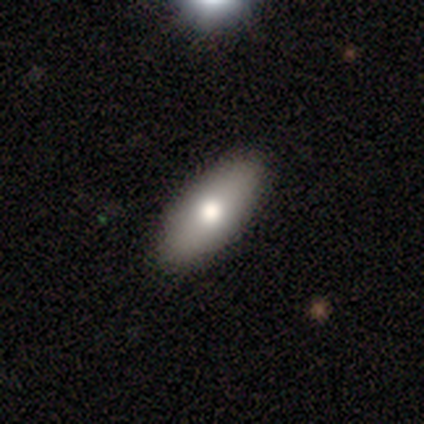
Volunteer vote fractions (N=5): Smooth or featured: smooth — 60% (featured or disk — 40%)
How rounded: in between — 100%
Merging: none — 100%